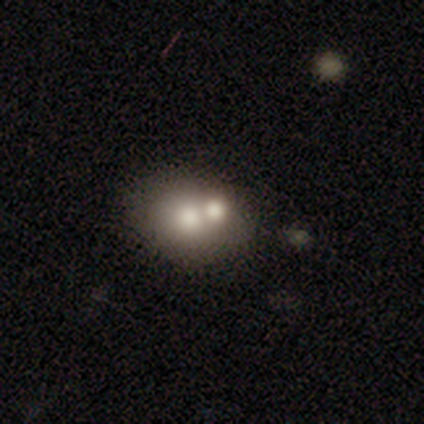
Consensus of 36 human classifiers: A smooth galaxy with no disk features (61%) that is round (59%). Merging: none (53%).